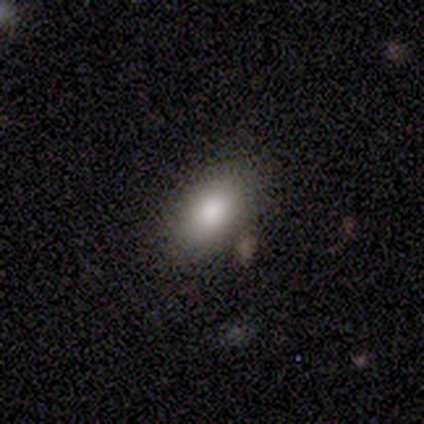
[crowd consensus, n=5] smooth_or_featured: smooth (p=1.00)
how_rounded: in between (p=0.80) [alt: round p=0.20]
merging: none (p=0.80) [alt: minor disturbance p=0.20]